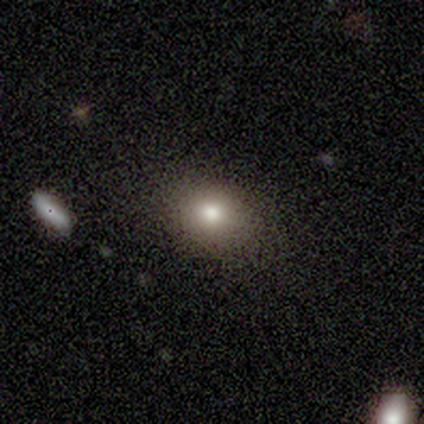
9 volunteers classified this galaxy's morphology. This appears to be a smooth galaxy with no disk features (89%) that is round (62%). Merging: none (88%).